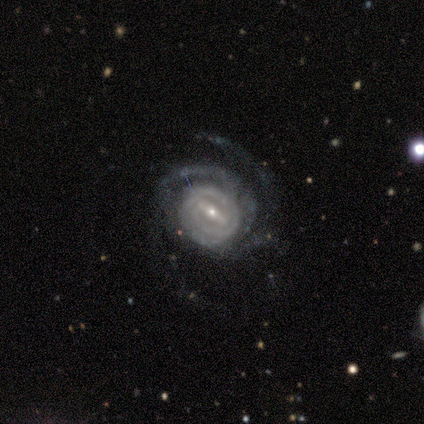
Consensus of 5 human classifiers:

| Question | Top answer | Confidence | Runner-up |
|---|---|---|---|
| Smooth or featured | featured or disk | 100% | — |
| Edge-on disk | no | 100% | — |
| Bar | strong | 60% | weak (40%) |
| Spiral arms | yes | 100% | — |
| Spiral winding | tight | 60% | medium (40%) |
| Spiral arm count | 2 | 80% | 3 (20%) |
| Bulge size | small | 80% | large (20%) |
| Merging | none | 80% | minor disturbance (20%) |